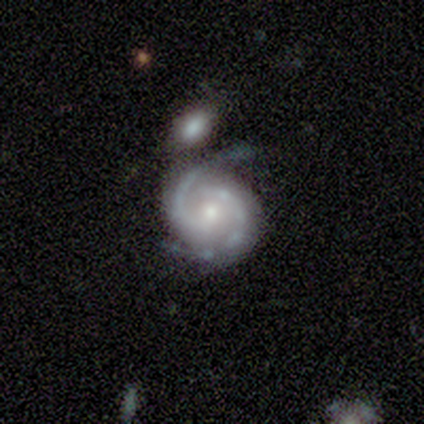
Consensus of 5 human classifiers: Volunteers were most divided on "merging": none: 60%, minor disturbance: 40%, major disturbance: 0%, merger: 0%. More confident: smooth or featured — featured or disk (100%); edge-on disk — no (100%); spiral arms — yes (100%); spiral arm count — 2 (100%); spiral winding — medium (80%); bar — no (60%); bulge size — small (60%).